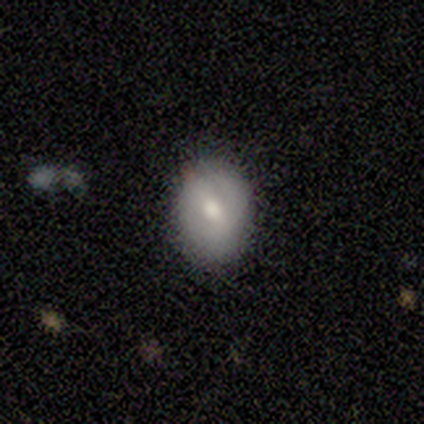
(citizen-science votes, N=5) A smooth galaxy with no disk features (60%) that is in between round and cigar-shaped (67%). Merging: none (80%).